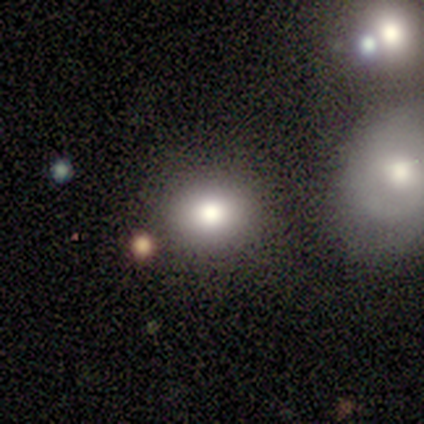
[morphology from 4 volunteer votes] Q: Smooth or featured?
A: smooth (100%)
Q: How rounded?
A: in between (75%); runner-up: round (25%)
Q: Merging?
A: none (100%)